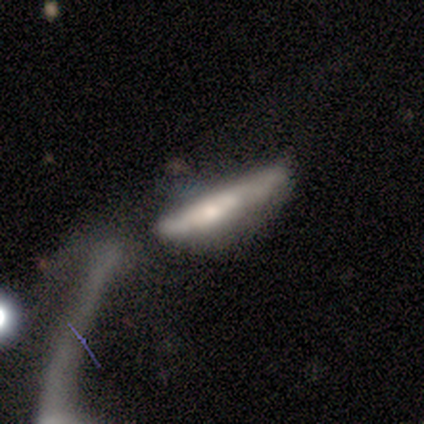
Smooth or featured?
  - smooth: 100% *
  - featured or disk: 0%
  - star or artifact: 0%
How rounded?
  - cigar-shaped: 100% *
  - round: 0%
  - in between: 0%
Merging?
  - merger: 50% *
  - none: 25%
  - minor disturbance: 25%
  - major disturbance: 0%